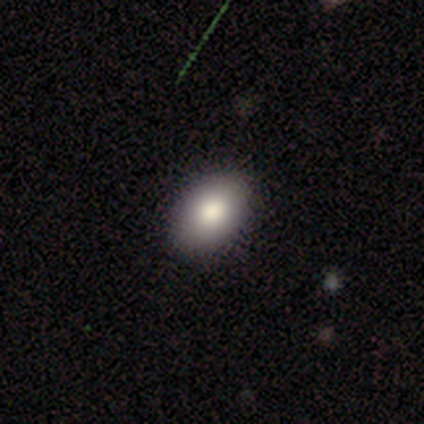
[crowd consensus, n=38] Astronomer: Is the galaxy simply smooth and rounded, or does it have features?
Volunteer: smooth — 84%.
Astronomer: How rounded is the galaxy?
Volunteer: in between — 94%.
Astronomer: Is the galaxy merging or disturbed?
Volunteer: none — 91%.